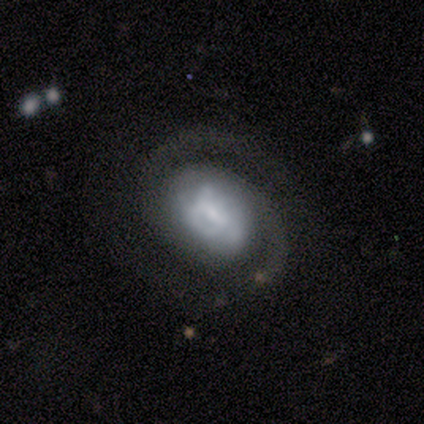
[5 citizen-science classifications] Overall: featured or disk (100%). Edge-on disk: no (100%). Bar: no (60%; weak 40%). Spiral arms: yes (100%). Spiral arm count: 2 (80%). Spiral winding: medium (60%; tight 40%). Bulge size: large (40%; moderate 20%). Merging: none (100%).